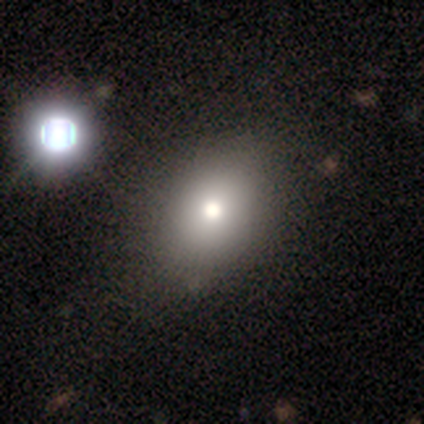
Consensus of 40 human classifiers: Smooth or featured? smooth (70%)
How rounded? in between (71%)
Merging? none (50%)